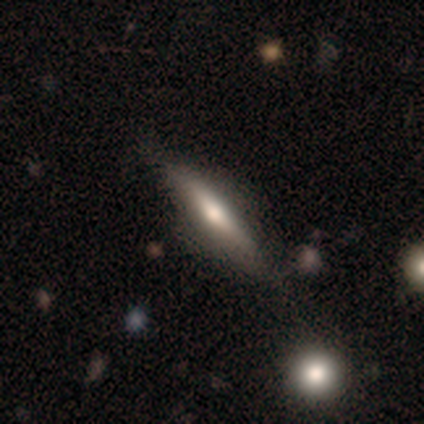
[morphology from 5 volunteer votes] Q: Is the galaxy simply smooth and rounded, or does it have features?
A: featured or disk — 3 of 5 (60%).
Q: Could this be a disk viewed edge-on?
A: yes — 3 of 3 (100%).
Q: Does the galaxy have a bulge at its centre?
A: rounded — 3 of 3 (100%).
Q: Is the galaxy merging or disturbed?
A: none — 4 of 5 (80%).